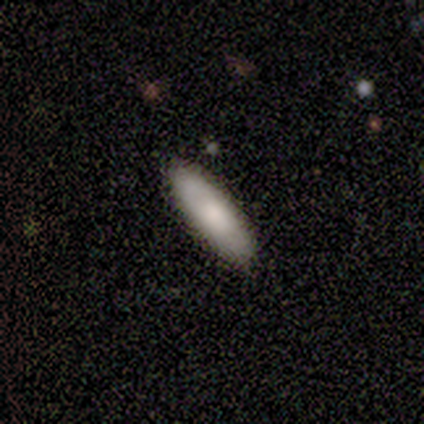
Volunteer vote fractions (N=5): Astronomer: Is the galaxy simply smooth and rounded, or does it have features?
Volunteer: smooth — 80%.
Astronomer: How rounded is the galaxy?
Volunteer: in between — 75%.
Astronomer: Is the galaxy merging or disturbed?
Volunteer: none — 80%.